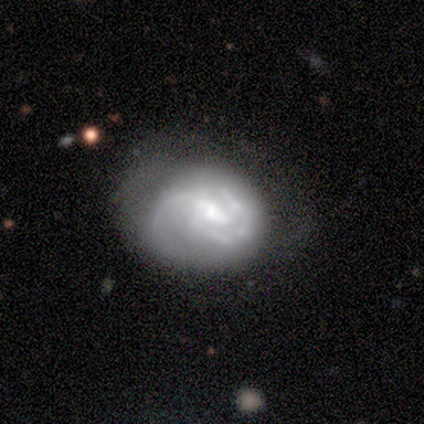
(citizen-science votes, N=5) Q: Smooth or featured?
A: featured or disk (80%); runner-up: star or artifact (20%)
Q: Edge-on disk?
A: no (100%)
Q: Bar?
A: weak (50%); tied with: no (50%)
Q: Spiral arms?
A: yes (100%)
Q: Spiral winding?
A: medium (75%); runner-up: tight (25%)
Q: Spiral arm count?
A: 1 (25%); tied with: 2 (25%); 3 (25%); can't tell (25%)
Q: Bulge size?
A: none (50%); runner-up: moderate (25%)
Q: Merging?
A: none (50%); tied with: minor disturbance (50%)